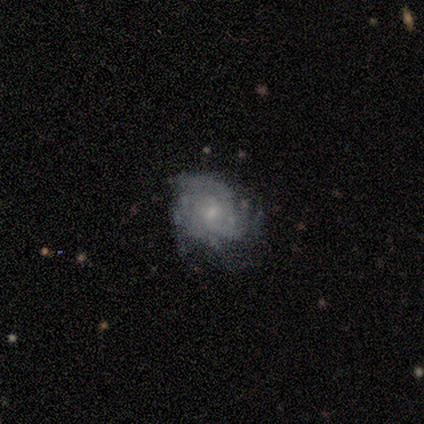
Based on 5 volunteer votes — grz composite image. It shows a featured or disk galaxy (100%) with no bar (60%), 3 (40%) tight (80%) spiral arms (100%) and a small central bulge (80%). Merging: none (60%).